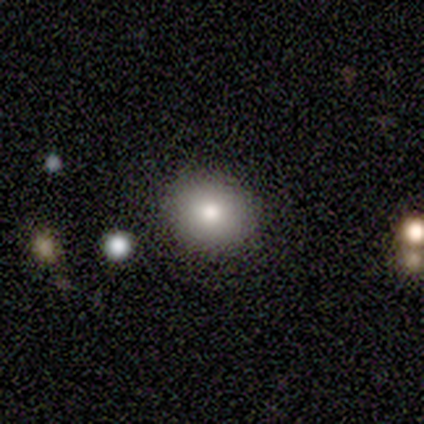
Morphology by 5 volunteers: Q: Smooth or featured?
A: smooth (80%); runner-up: featured or disk (20%)
Q: How rounded?
A: round (75%); runner-up: in between (25%)
Q: Merging?
A: none (100%)